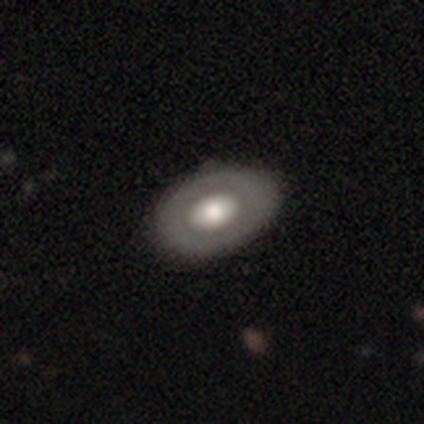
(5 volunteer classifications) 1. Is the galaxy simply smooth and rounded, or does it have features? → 60% featured or disk, 40% smooth, 0% star or artifact.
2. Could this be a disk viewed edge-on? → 100% no, 0% yes.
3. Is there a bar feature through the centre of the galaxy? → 100% no, 0% strong, 0% weak.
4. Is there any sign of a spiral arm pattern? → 100% no, 0% yes.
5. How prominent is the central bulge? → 67% small, 33% large, 0% dominant, 0% moderate, 0% none.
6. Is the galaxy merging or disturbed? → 80% none, 20% major disturbance, 0% minor disturbance, 0% merger.